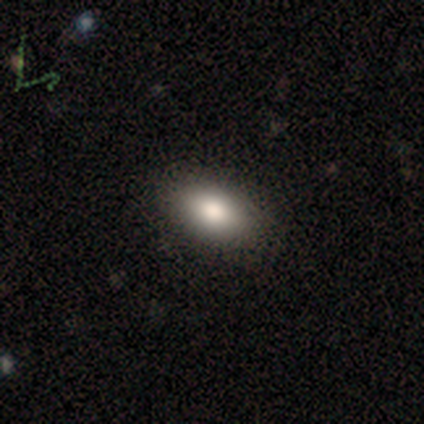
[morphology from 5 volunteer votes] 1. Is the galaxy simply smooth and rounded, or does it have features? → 80% smooth, 20% featured or disk, 0% star or artifact.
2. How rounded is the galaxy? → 75% in between, 25% round, 0% cigar-shaped.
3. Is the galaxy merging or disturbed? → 100% none, 0% minor disturbance, 0% major disturbance, 0% merger.